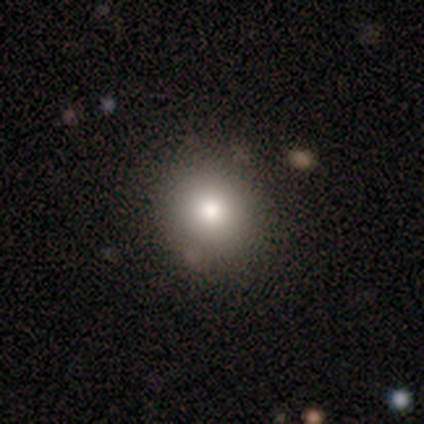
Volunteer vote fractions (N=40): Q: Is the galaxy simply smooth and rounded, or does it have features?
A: smooth — 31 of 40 (78%).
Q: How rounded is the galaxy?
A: round — 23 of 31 (74%).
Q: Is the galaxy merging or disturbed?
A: none — 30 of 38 (79%).